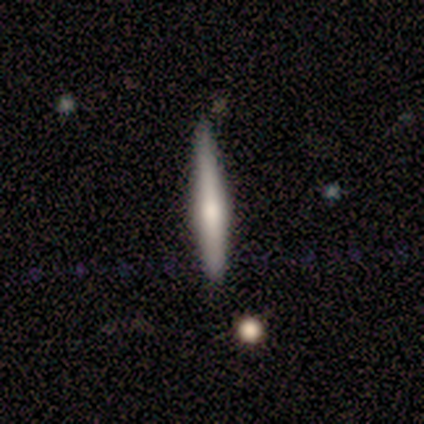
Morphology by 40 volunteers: This is possibly a featured or disk galaxy (55%). It is clearly viewed edge-on (100%). Edge-on bulge: likely rounded (73%). Merging: likely none (77%).